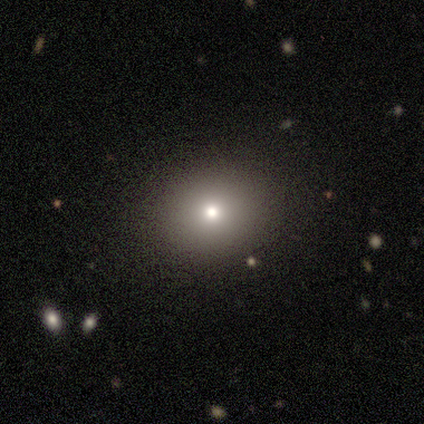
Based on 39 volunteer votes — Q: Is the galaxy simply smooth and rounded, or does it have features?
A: smooth — 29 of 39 (74%).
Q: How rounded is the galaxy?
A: round — 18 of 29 (62%).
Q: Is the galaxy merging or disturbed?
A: none — 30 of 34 (88%).